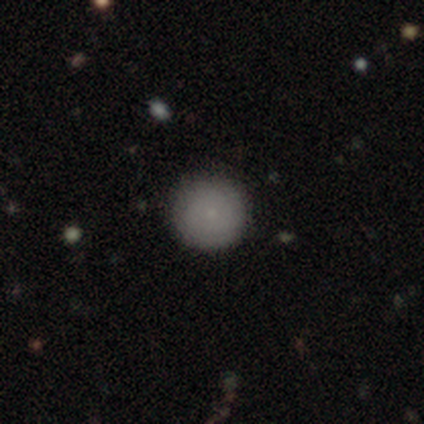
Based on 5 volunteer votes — Overall: smooth (100%). How rounded: round (100%). Merging: none (100%).